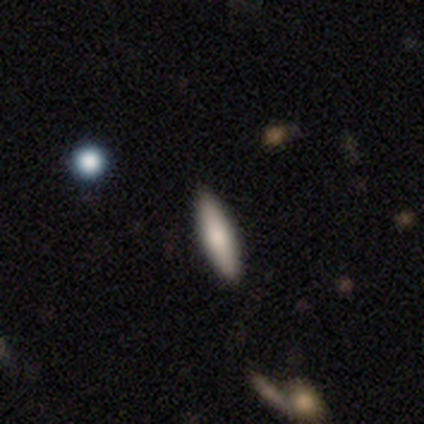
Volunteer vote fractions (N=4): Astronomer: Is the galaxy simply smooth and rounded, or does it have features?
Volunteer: smooth — 75%.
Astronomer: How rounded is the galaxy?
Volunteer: cigar-shaped — 67%.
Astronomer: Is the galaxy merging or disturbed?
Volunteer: none — 67%.